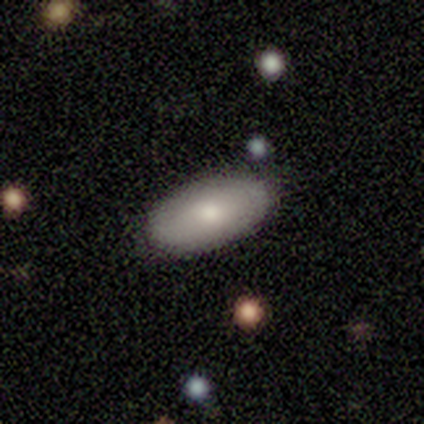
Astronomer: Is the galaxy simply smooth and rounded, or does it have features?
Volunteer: smooth — 80%.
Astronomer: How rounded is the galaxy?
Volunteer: in between — 100%.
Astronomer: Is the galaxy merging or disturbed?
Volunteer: none — 100%.